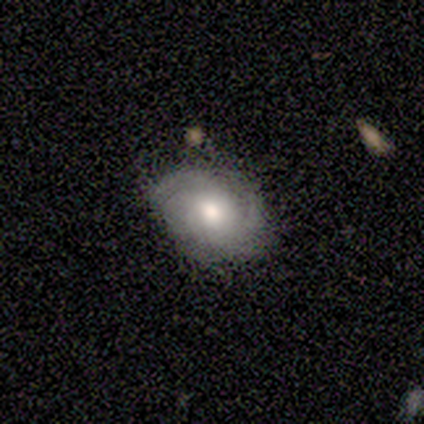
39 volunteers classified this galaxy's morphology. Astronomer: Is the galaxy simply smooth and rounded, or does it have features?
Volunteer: featured or disk — 67%.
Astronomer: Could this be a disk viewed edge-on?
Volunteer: no — 100%.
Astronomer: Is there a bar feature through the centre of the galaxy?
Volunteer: no — 81%.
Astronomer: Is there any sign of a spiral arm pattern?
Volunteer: yes — 100%.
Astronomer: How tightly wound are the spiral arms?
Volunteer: tight — 42% (runner-up: medium, 35%).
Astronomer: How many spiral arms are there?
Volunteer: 3 — 35%, tied with can't tell at 35%.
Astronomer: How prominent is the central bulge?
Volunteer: moderate — 69%.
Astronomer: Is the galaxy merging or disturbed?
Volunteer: none — 74%.